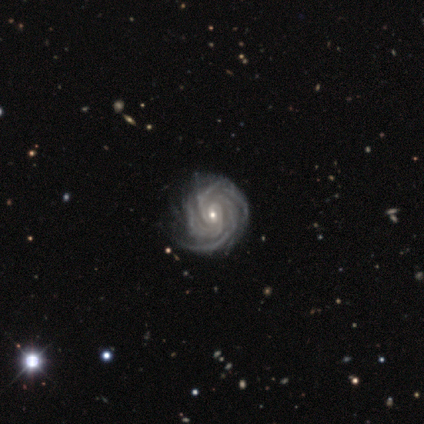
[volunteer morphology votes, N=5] smooth-or-featured: featured or disk: 100% | smooth: 0% | star or artifact: 0%
  disk-edge-on: no: 100% | yes: 0%
    bar: weak: 40% (tied) | no: 40% (tied) | strong: 20%
    has-spiral-arms: yes: 100% | no: 0%
      spiral-winding: tight: 80% | medium: 20% | loose: 0%
      spiral-arm-count: 3: 40% | 2: 20% | 4: 20% | more than 4: 20% | 1: 0% | can't tell: 0%
    bulge-size: moderate: 60% | small: 40% | dominant: 0% | large: 0% | none: 0%
  merging: none: 80% | major disturbance: 20% | minor disturbance: 0% | merger: 0%